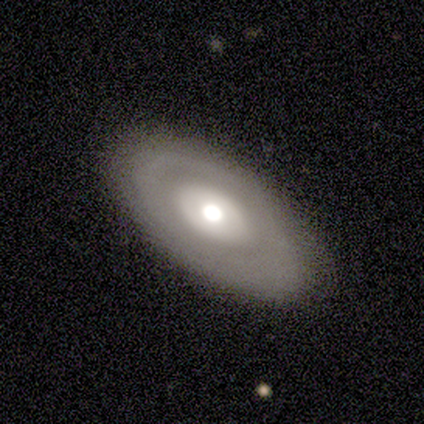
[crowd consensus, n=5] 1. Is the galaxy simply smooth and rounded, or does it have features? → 40% smooth (tied), 40% featured or disk (tied), 20% star or artifact.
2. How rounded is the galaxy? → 100% in between, 0% round, 0% cigar-shaped.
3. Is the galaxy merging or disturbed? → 100% none, 0% minor disturbance, 0% major disturbance, 0% merger.